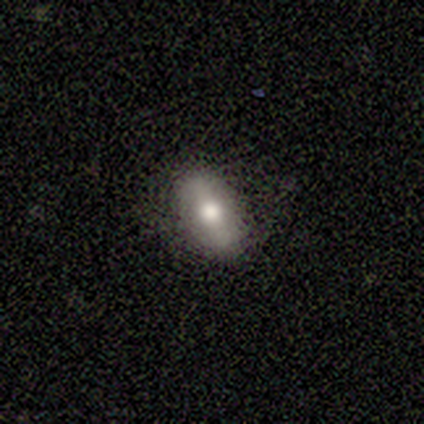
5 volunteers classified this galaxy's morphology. Smooth or featured? 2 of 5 (40%, tied with featured or disk) said smooth. How rounded? 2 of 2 (100%) said in between. Merging? 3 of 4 (75%) said none.